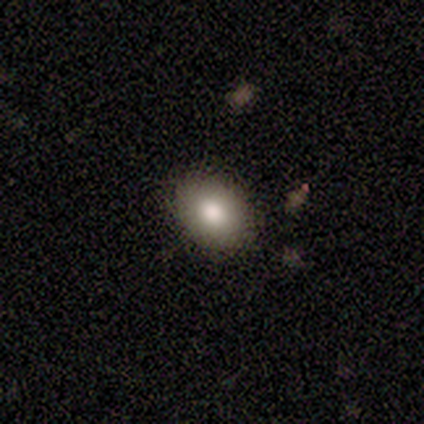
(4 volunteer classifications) Morphology: type=smooth (50%); roundness=round (50%, tied with in between); merging=none (100%).